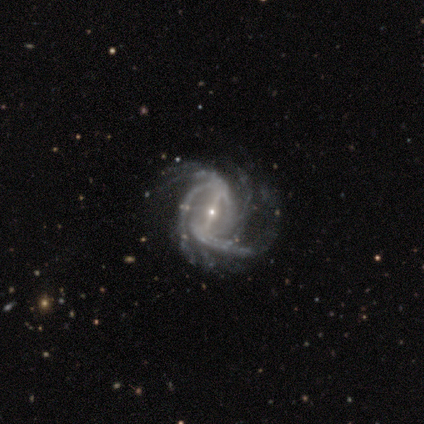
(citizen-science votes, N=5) Smooth or featured?
  - featured or disk: 100% *
  - smooth: 0%
  - star or artifact: 0%
Edge-on disk?
  - no: 80% *
  - yes: 20%
Bar?
  - strong: 100% *
  - weak: 0%
  - no: 0%
Spiral arms?
  - yes: 100% *
  - no: 0%
Spiral winding?
  - medium: 75% *
  - loose: 25%
  - tight: 0%
Spiral arm count?
  - more than 4: 50% *
  - 2: 25%
  - 3: 25%
  - 1: 0%
  - 4: 0%
  - can't tell: 0%
Bulge size?
  - small: 100% *
  - dominant: 0%
  - large: 0%
  - moderate: 0%
  - none: 0%
Merging?
  - none: 80% *
  - minor disturbance: 20%
  - major disturbance: 0%
  - merger: 0%